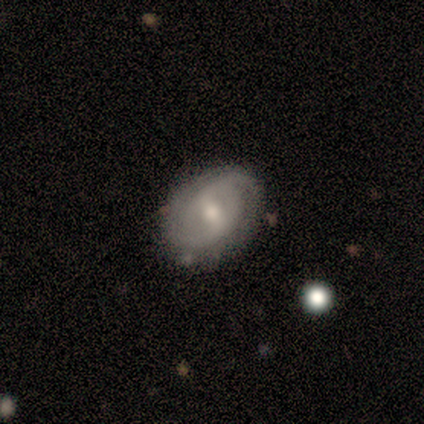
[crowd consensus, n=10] smooth_or_featured: featured or disk (p=0.90) [alt: smooth p=0.10]
disk_edge_on: no (p=1.00)
bar: weak (p=0.56) [alt: strong p=0.33]
has_spiral_arms: yes (p=1.00)
spiral_winding: tight (p=0.56) [alt: medium p=0.22]
spiral_arm_count: 2 (p=0.78) [alt: can't tell p=0.22]
bulge_size: small (p=0.56) [alt: moderate p=0.44]
merging: none (p=0.80) [alt: minor disturbance p=0.20]